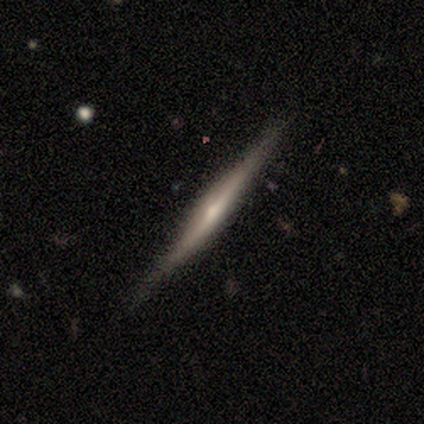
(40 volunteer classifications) Overall: featured or disk (70%). Edge-on disk: yes (96%). Edge-on bulge: rounded (67%). Merging: none (81%).